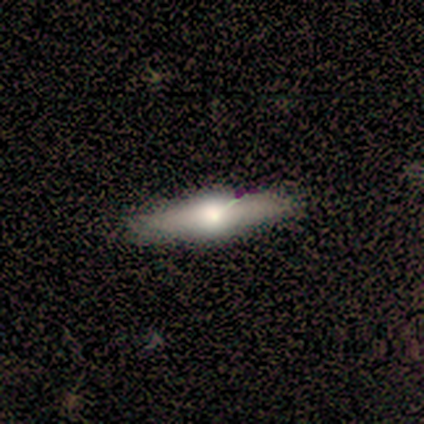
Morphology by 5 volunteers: smooth_or_featured: smooth (p=0.40) [tied with: featured or disk p=0.40]
how_rounded: in between (p=0.50) [tied with: cigar-shaped p=0.50]
merging: none (p=0.75) [alt: minor disturbance p=0.25]